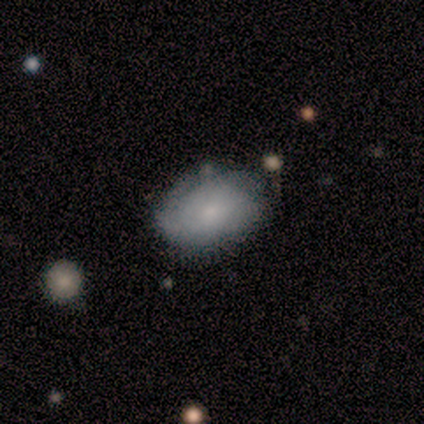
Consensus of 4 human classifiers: Overall: featured or disk (50%; smooth 25%). Edge-on disk: yes (50%, tied with no). Edge-on bulge: rounded (100%). Merging: none (33%, tied with minor disturbance and major disturbance).